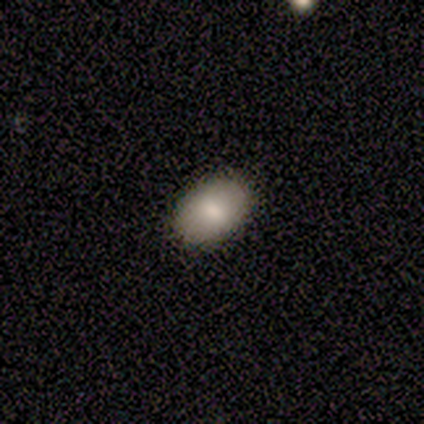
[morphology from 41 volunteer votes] Smooth or featured?
  - smooth: 76% *
  - featured or disk: 17%
  - star or artifact: 7%
How rounded?
  - in between: 87% *
  - round: 10%
  - cigar-shaped: 3%
Merging?
  - none: 66% *
  - major disturbance: 3%
  - merger: 3%
  - minor disturbance: 0%